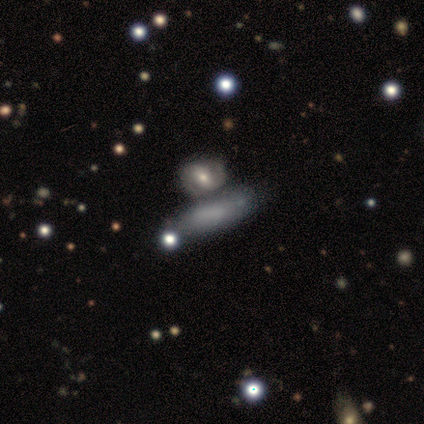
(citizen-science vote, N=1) A featured or disk galaxy (100%) with no bar (100%), no spiral arms (100%) and no central bulge (100%). Merging: none (100%).